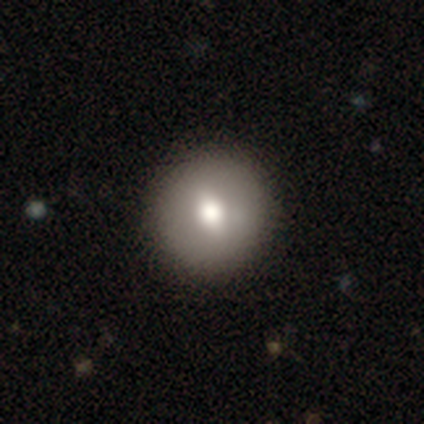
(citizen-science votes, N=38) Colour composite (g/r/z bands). It shows a smooth galaxy with no disk features (68%) that is round (100%). Merging: none (91%).